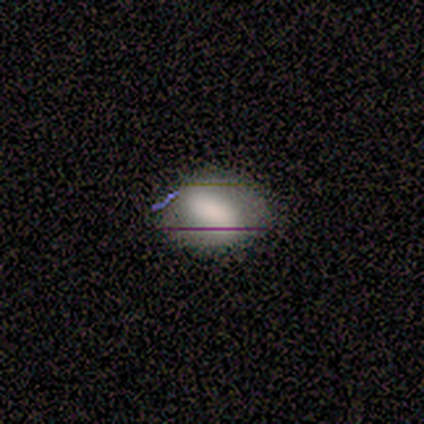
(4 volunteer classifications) Q: Smooth or featured?
A: smooth (50%); runner-up: featured or disk (25%)
Q: How rounded?
A: in between (100%)
Q: Merging?
A: none (100%)